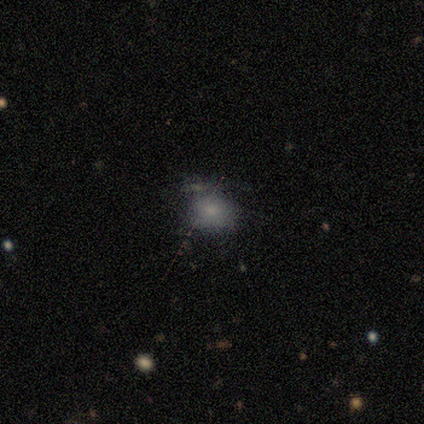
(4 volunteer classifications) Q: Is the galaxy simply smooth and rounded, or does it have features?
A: smooth — 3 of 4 (75%).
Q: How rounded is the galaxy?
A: round — 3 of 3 (100%).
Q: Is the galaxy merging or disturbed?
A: none — 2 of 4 (50%).